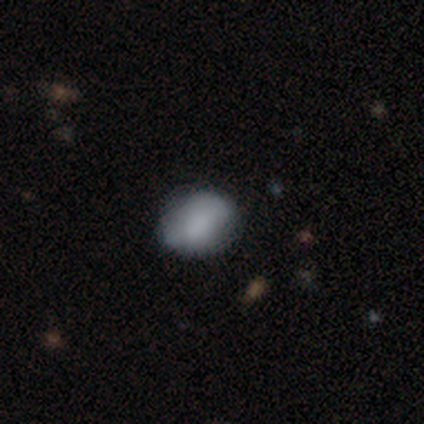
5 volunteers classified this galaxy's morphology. Q: Smooth or featured?
A: smooth (80%); runner-up: star or artifact (20%)
Q: How rounded?
A: round (50%); tied with: in between (50%)
Q: Merging?
A: none (100%)